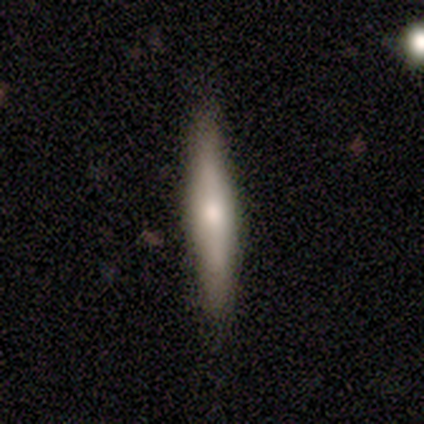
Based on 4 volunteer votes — Morphology: type=featured or disk (75%); edge-on=yes (100%); edge-on bulge=rounded (67%); merging=none (100%).